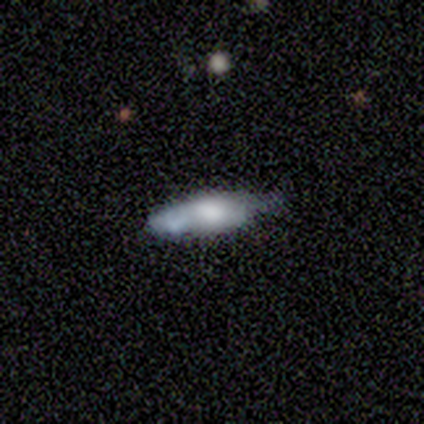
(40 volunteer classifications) This appears to be a smooth galaxy with no disk features (65%) that is cigar-shaped (62%). Merging: none (54%).